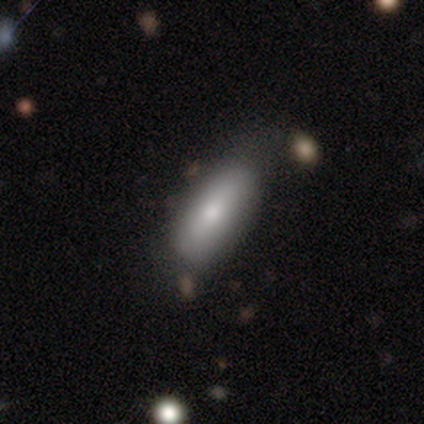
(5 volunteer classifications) smooth-or-featured: smooth: 100% | featured or disk: 0% | star or artifact: 0%
  how-rounded: cigar-shaped: 60% | in between: 40% | round: 0%
  merging: none: 80% | minor disturbance: 20% | major disturbance: 0% | merger: 0%